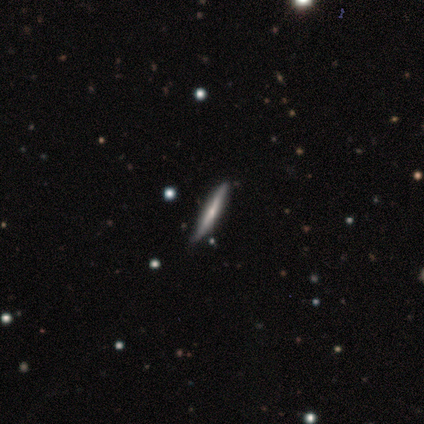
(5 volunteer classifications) Q: Smooth or featured?
A: featured or disk (60%); runner-up: smooth (40%)
Q: Edge-on disk?
A: yes (100%)
Q: Edge-on bulge?
A: none (100%)
Q: Merging?
A: none (100%)